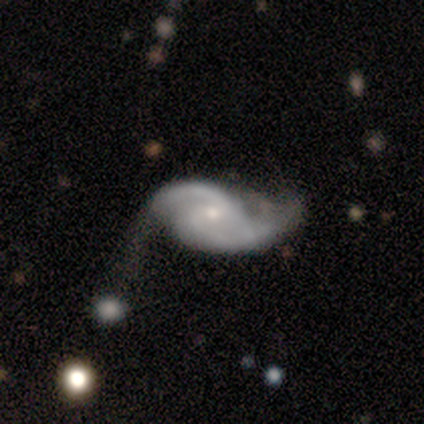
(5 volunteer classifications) Q: Smooth or featured?
A: featured or disk (100%)
Q: Edge-on disk?
A: no (100%)
Q: Bar?
A: weak (80%); runner-up: no (20%)
Q: Spiral arms?
A: yes (100%)
Q: Spiral winding?
A: medium (40%); tied with: loose (40%)
Q: Spiral arm count?
A: 2 (80%); runner-up: 3 (20%)
Q: Bulge size?
A: moderate (40%); tied with: small (40%)
Q: Merging?
A: none (40%); tied with: minor disturbance (40%)